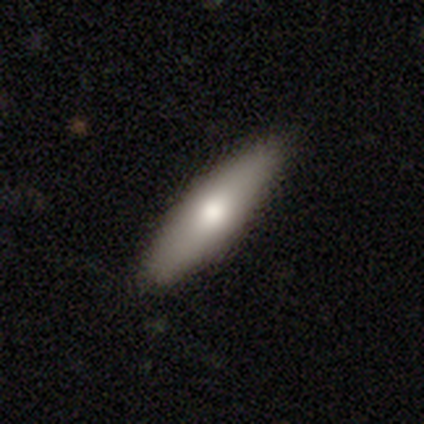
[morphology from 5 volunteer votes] Volunteers were most divided on "smooth or featured": smooth: 60%, featured or disk: 40%, star or artifact: 0%. More confident: merging — none (100%); how rounded — in between (67%).